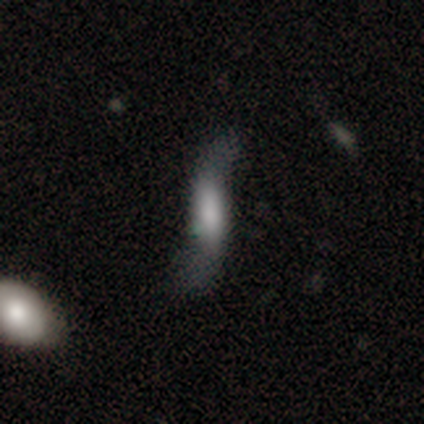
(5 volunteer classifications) Smooth or featured? 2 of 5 (40%, tied with featured or disk) said smooth. How rounded? 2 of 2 (100%) said in between. Merging? 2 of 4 (50%) said major disturbance.